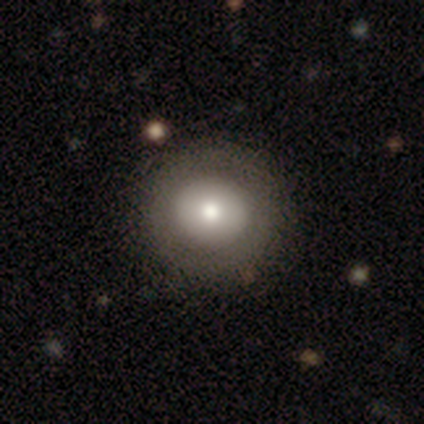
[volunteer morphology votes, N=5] This is clearly a smooth galaxy (80%). How rounded: clearly round (100%). Merging: clearly none (80%).